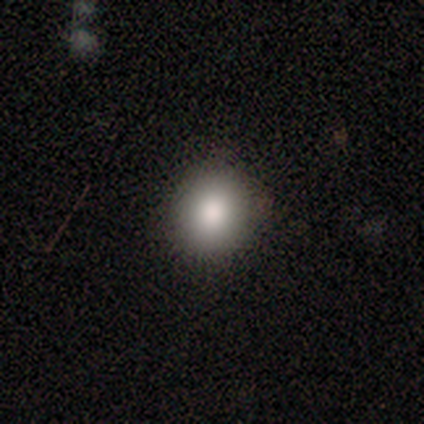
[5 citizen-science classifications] Smooth or featured?
  - smooth: 100% *
  - featured or disk: 0%
  - star or artifact: 0%
How rounded?
  - round: 60% *
  - in between: 40%
  - cigar-shaped: 0%
Merging?
  - none: 80% *
  - minor disturbance: 20%
  - major disturbance: 0%
  - merger: 0%